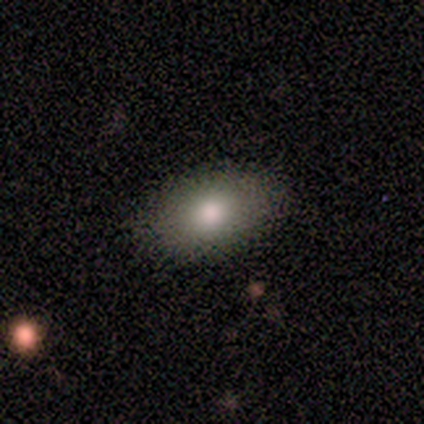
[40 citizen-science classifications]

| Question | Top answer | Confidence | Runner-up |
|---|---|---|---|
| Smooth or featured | smooth | 85% | featured or disk (8%) |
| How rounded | in between | 94% | round (6%) |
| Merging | none | 95% | minor disturbance (3%) |